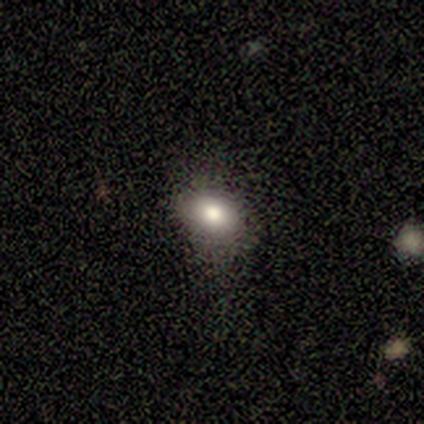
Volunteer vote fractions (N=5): A smooth galaxy with no disk features (80%) that is round (50%, tied with in between). Merging: none (80%).